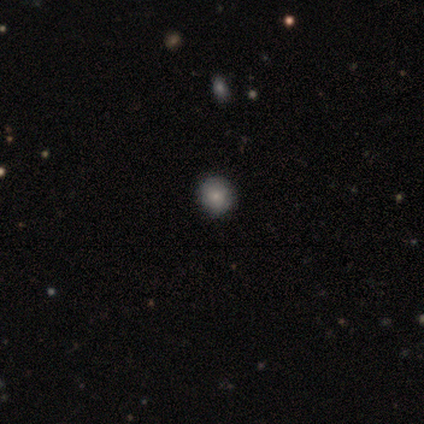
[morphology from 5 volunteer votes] Volunteers were most divided on "smooth or featured": smooth: 60%, star or artifact: 40%, featured or disk: 0%. More confident: how rounded — round (100%); merging — none (100%).